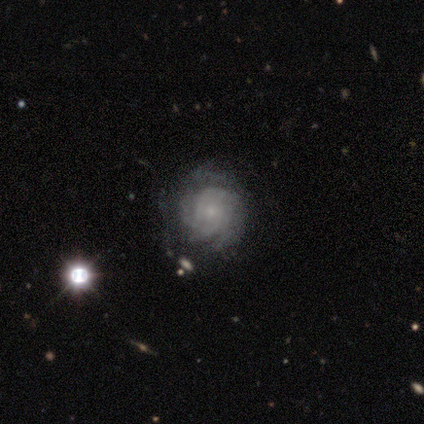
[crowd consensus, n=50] A featured or disk galaxy (84%) with no bar (100%), tight (84%) spiral arms (90%) and a small central bulge (67%). Merging: none (72%).